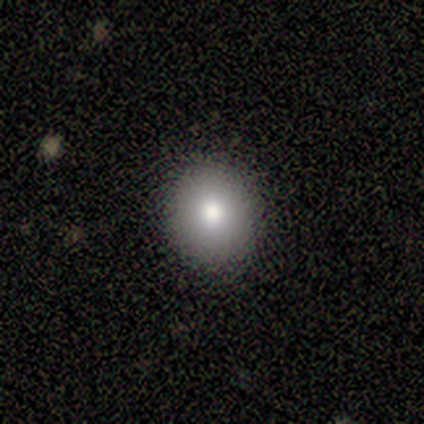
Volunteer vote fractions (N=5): smooth-or-featured: smooth: 100% | featured or disk: 0% | star or artifact: 0%
  how-rounded: round: 80% | in between: 20% | cigar-shaped: 0%
  merging: none: 100% | minor disturbance: 0% | major disturbance: 0% | merger: 0%